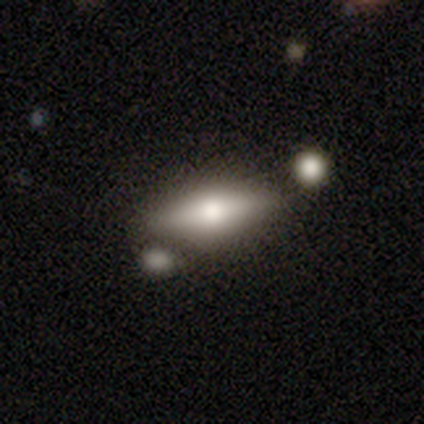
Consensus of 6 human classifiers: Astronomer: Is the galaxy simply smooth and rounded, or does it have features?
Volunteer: featured or disk — 67%.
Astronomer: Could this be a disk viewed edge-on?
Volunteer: yes — 100%.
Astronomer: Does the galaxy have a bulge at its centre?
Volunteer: rounded — 100%.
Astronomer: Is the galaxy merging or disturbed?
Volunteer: none — 83%.